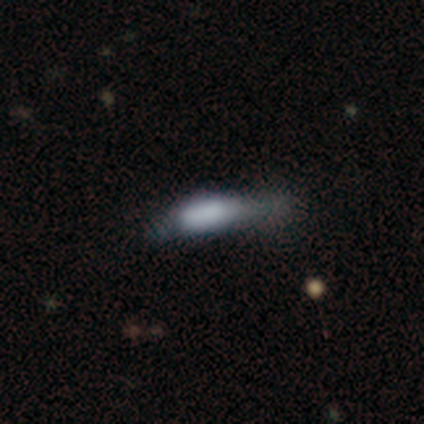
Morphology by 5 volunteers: smooth_or_featured: smooth (p=0.80) [alt: star or artifact p=0.20]
how_rounded: in between (p=0.75) [alt: cigar-shaped p=0.25]
merging: major disturbance (p=0.50) [alt: none p=0.25]